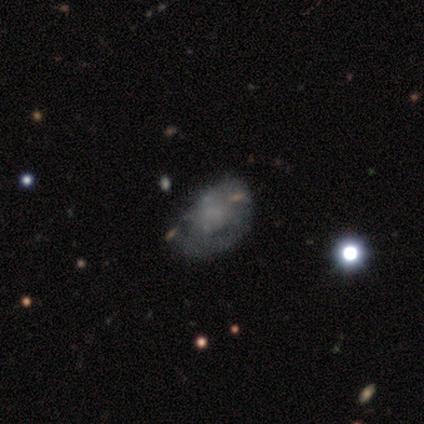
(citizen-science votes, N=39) featured or disk 59%, smooth 36%, star or artifact 5%. Down the decision tree: edge-on disk — no (100%); bar — no (100%); spiral arms — no (78%); bulge size — none (83%); merging — none (49%).